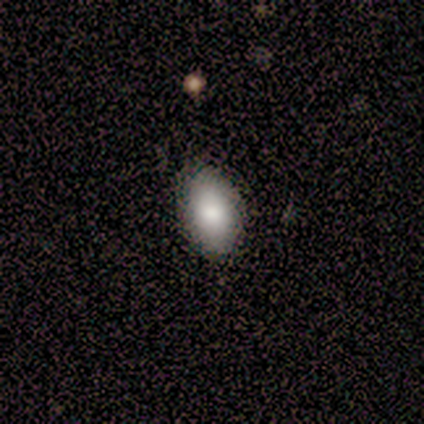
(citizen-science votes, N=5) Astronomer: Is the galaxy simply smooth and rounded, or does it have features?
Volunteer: smooth — 100%.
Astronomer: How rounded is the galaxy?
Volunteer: in between — 100%.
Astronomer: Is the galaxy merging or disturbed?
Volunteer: none — 80%.